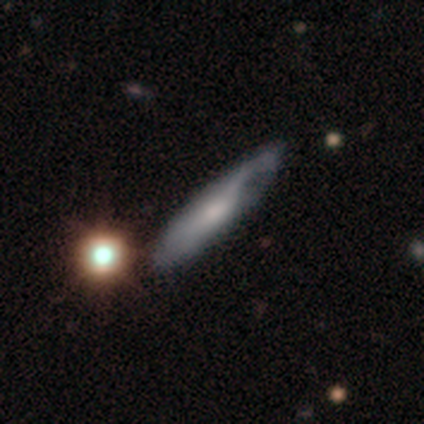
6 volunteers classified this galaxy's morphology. A smooth galaxy with no disk features (50%, tied with featured or disk) that is cigar-shaped (67%).

Vote fractions:
- Smooth or featured? smooth: 50% (tied) / featured or disk: 50% (tied) / star or artifact: 0%
- How rounded? cigar-shaped: 67% / in between: 33% / round: 0%
- Merging? none: 33% (tied) / minor disturbance: 33% (tied) / major disturbance: 33% (tied) / merger: 0%